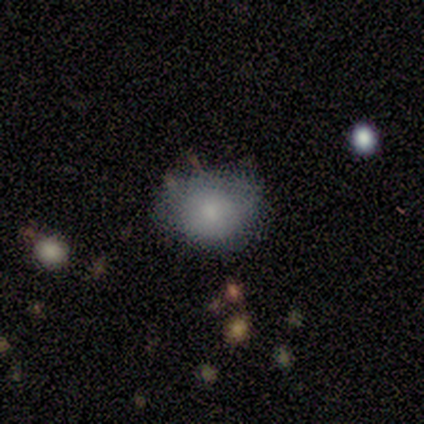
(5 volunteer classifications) Volunteers were most divided on "how rounded": in between: 60%, round: 40%, cigar-shaped: 0%. More confident: smooth or featured — smooth (100%); merging — none (60%).